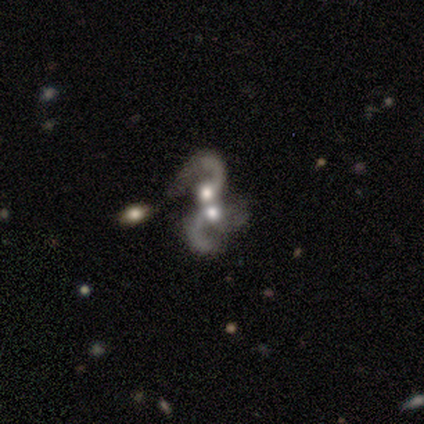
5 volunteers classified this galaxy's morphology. Overall: featured or disk (100%). Edge-on disk: no (100%). Bar: no (60%; strong 20%). Spiral arms: yes (100%). Spiral arm count: 3 (60%; 1 20%). Spiral winding: loose (80%). Bulge size: moderate (80%). Merging: none (40%, tied with merger).